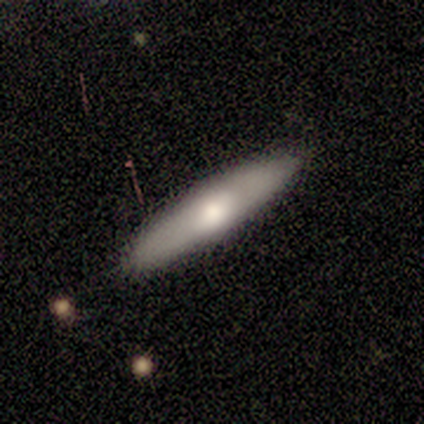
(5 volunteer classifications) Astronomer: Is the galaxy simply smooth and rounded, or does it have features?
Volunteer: featured or disk — 60% (runner-up: smooth, 40%).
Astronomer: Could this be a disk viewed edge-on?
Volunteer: yes — 100%.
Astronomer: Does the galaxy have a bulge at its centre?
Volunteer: rounded — 100%.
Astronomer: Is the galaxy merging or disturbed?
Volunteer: none — 100%.